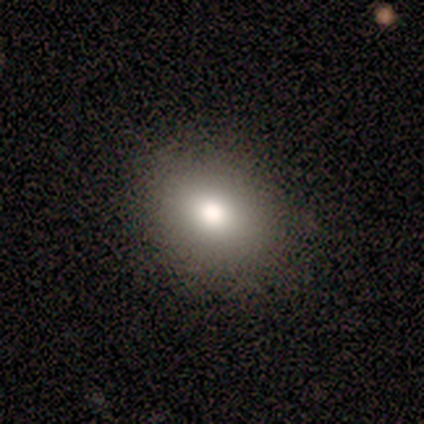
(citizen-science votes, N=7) Volunteers were most divided on "how rounded" (2-way tie): round: 50%, in between: 50%, cigar-shaped: 0%. More confident: smooth or featured — smooth (86%); merging — none (86%).